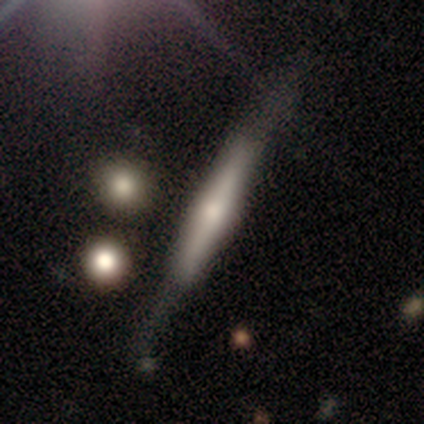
A featured or disk galaxy (55%) viewed edge-on (95%) with a rounded central bulge (43%).

Vote fractions:
- Smooth or featured? featured or disk: 55% / smooth: 42% / star or artifact: 2%
- Edge-on disk? yes: 95% / no: 5%
- Edge-on bulge? rounded: 43% / boxy: 38% / none: 19%
- Merging? none: 72% / minor disturbance: 15% / major disturbance: 8% / merger: 5%